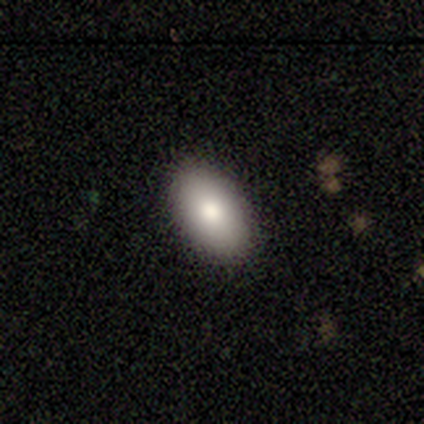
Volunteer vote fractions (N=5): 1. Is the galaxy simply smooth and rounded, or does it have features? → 100% smooth, 0% featured or disk, 0% star or artifact.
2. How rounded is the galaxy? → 80% in between, 20% cigar-shaped, 0% round.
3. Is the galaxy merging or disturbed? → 100% none, 0% minor disturbance, 0% major disturbance, 0% merger.